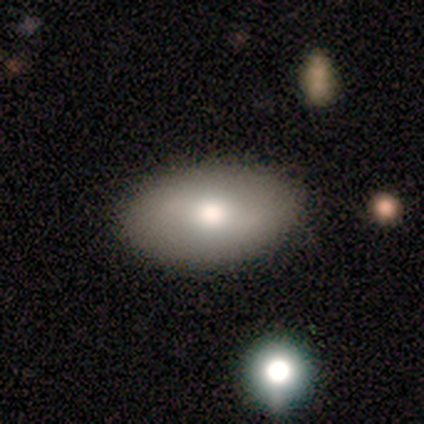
This appears to be a featured or disk galaxy (60%) with a strong bar (33%, tied with weak and no), no spiral arms (67%) and a large central bulge (33%, tied with moderate and small). Merging: none (100%).